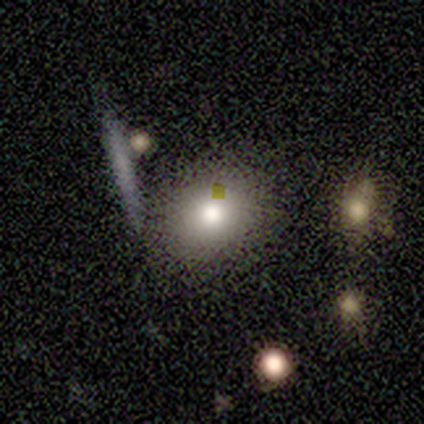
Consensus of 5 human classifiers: A smooth galaxy with no disk features (80%) that is in between round and cigar-shaped (75%). Merging: none (75%).